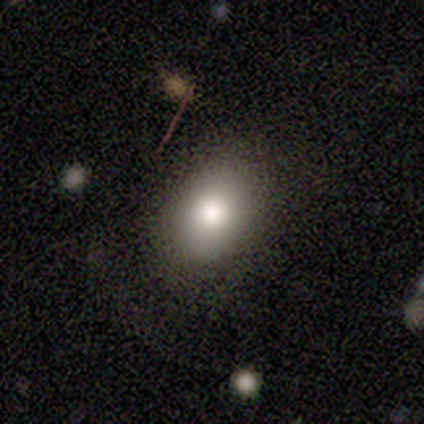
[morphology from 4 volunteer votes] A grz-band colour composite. It shows a smooth galaxy with no disk features (100%) that is in between round and cigar-shaped (75%). Merging: none (50%).